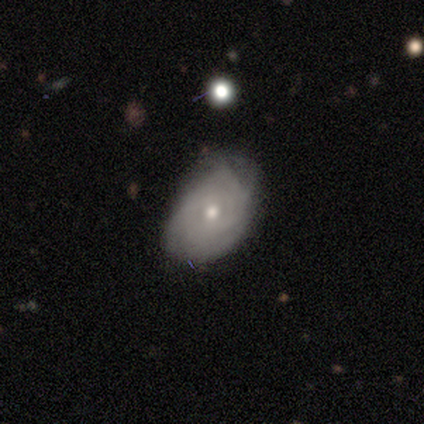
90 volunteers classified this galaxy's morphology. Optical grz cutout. It shows a featured or disk galaxy (66%) with no bar (67%), tight (79%) spiral arms (78%) and a moderate central bulge (53%). Merging: none (57%).